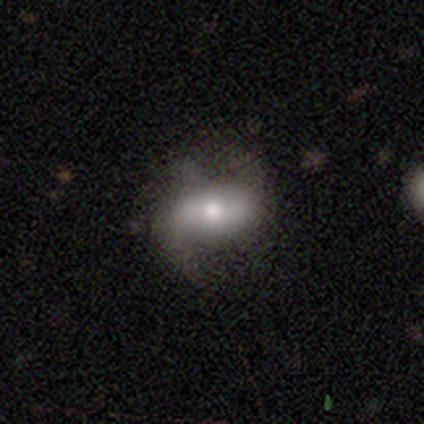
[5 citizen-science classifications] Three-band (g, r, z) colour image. It shows a smooth galaxy with no disk features (40%, tied with featured or disk) that is in between round and cigar-shaped (100%). Merging: minor disturbance (50%).